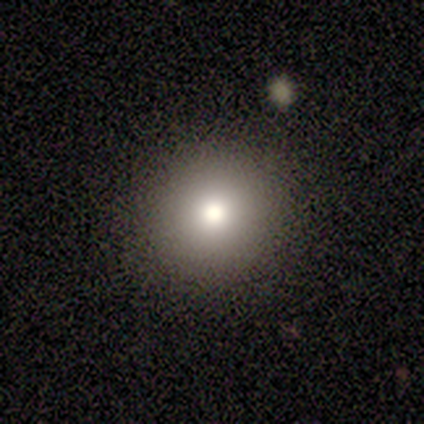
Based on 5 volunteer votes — A smooth galaxy with no disk features (80%) that is round (100%). Merging: none (100%).